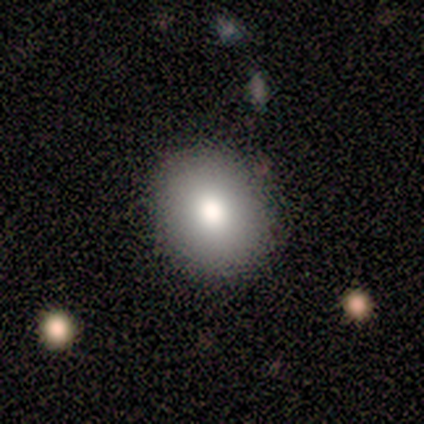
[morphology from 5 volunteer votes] smooth_or_featured: smooth (p=1.00)
how_rounded: in between (p=0.60) [alt: round p=0.40]
merging: none (p=1.00)